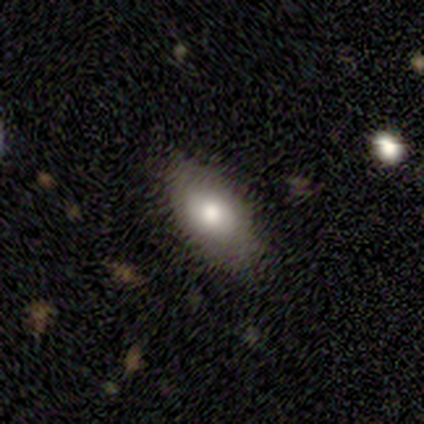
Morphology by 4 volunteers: Smooth or featured: featured or disk — 50% (smooth — 25%)
Edge-on disk: no — 100%
Bar: no — 100%
Spiral arms: no — 100%
Bulge size: moderate — 100%
Merging: minor disturbance — 67% (none — 33%)